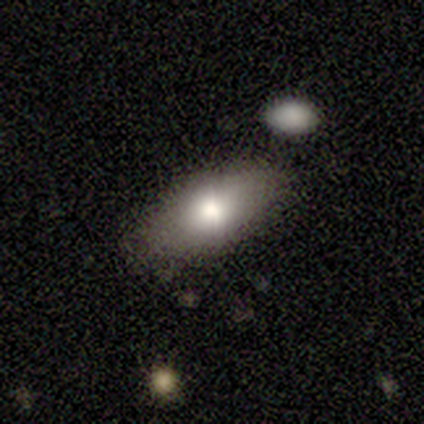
smooth-or-featured: smooth: 100% | featured or disk: 0% | star or artifact: 0%
  how-rounded: in between: 83% | cigar-shaped: 17% | round: 0%
  merging: none: 83% | minor disturbance: 17% | major disturbance: 0% | merger: 0%